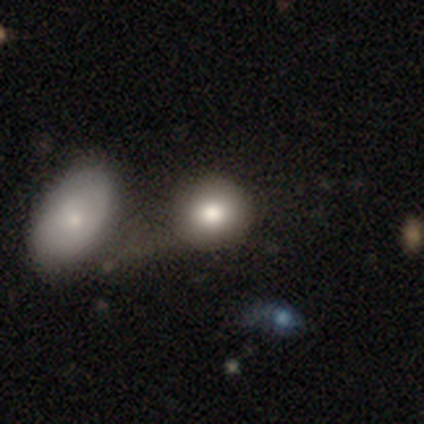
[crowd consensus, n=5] This is clearly a smooth galaxy (80%). How rounded: possibly round (50%, tied with in between). Merging: marginally merger (40%).